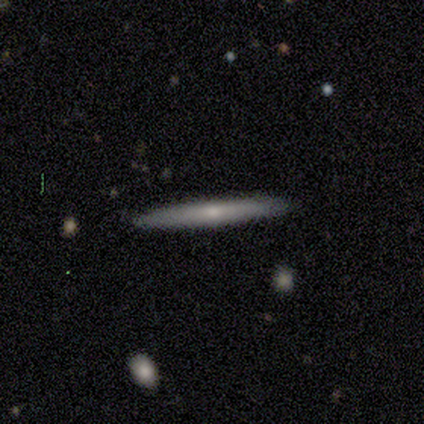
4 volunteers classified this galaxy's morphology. Consensus on every question: smooth or featured — smooth (100%); how rounded — cigar-shaped (100%); merging — none (100%).